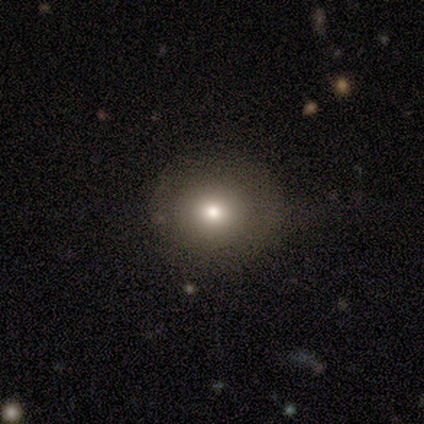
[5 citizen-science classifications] smooth 100%, featured or disk 0%, star or artifact 0%. Down the decision tree: how rounded — round (100%); merging — none (100%).